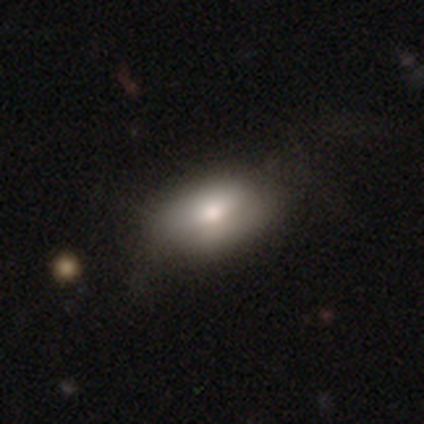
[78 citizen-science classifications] This is likely a smooth galaxy (76%). How rounded: clearly in between (90%). Merging: marginally none (27%).